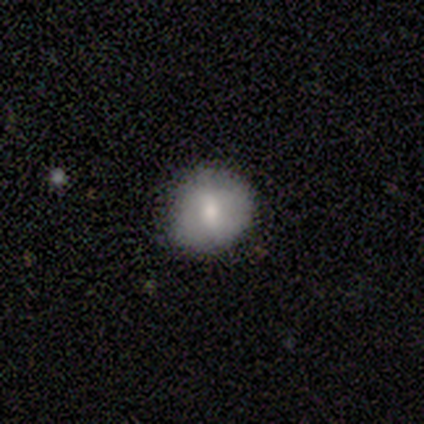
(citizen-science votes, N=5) Volunteers were most divided on "smooth or featured": star or artifact: 60%, smooth: 20%, featured or disk: 20%.